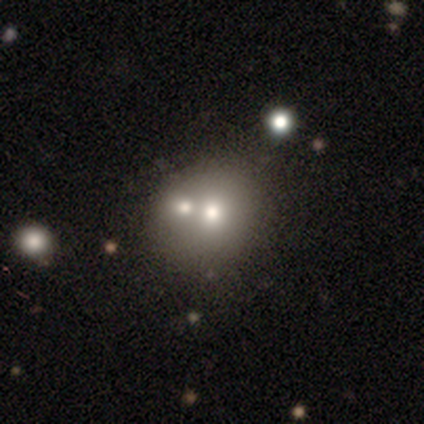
smooth-or-featured: smooth: 40% (tied) | featured or disk: 40% (tied) | star or artifact: 20%
  how-rounded: round: 100% | in between: 0% | cigar-shaped: 0%
  merging: none: 50% | minor disturbance: 25% | merger: 25% | major disturbance: 0%